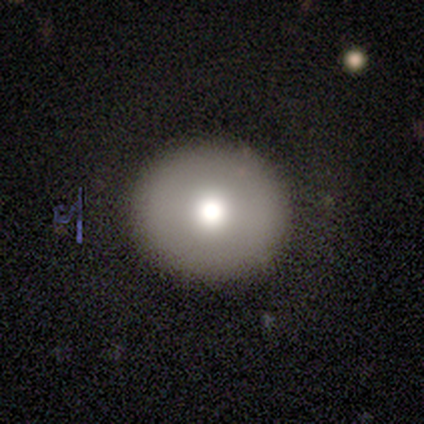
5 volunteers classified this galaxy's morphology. Overall: smooth (80%). How rounded: round (100%). Merging: none (75%).